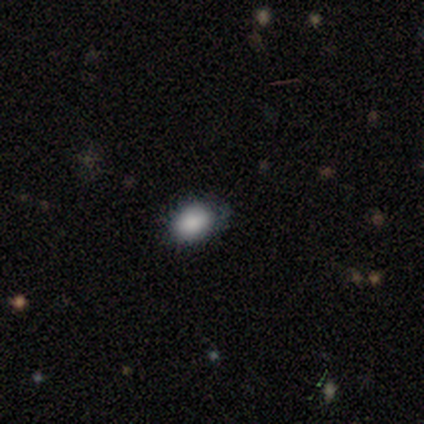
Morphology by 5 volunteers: smooth-or-featured: smooth: 80% | star or artifact: 20% | featured or disk: 0%
  how-rounded: in between: 100% | round: 0% | cigar-shaped: 0%
  merging: none: 75% | major disturbance: 25% | minor disturbance: 0% | merger: 0%